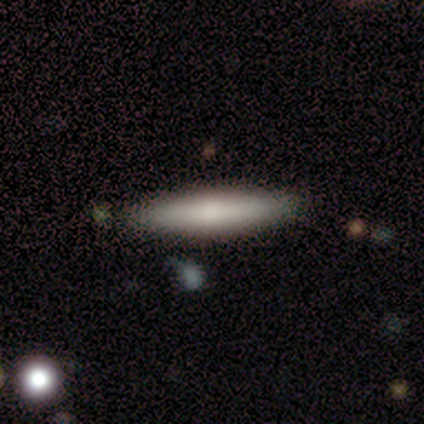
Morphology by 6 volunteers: smooth_or_featured: smooth (p=0.83) [alt: featured or disk p=0.17]
how_rounded: cigar-shaped (p=1.00)
merging: none (p=0.83) [alt: minor disturbance p=0.17]